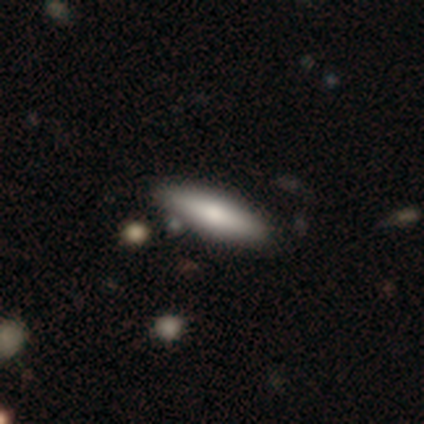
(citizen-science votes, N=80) Smooth or featured? smooth (70%)
How rounded? cigar-shaped (66%)
Merging? none (47%)